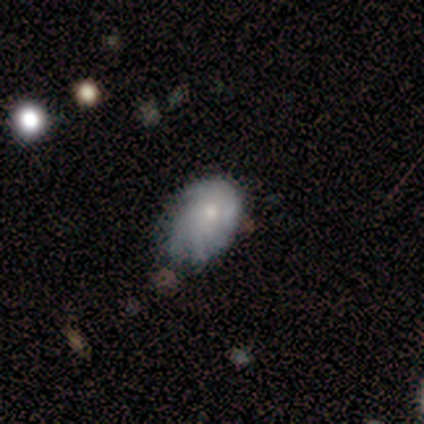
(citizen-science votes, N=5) Smooth or featured?
  - featured or disk: 60% *
  - smooth: 40%
  - star or artifact: 0%
Edge-on disk?
  - no: 100% *
  - yes: 0%
Bar?
  - no: 100% *
  - strong: 0%
  - weak: 0%
Spiral arms?
  - yes: 67% *
  - no: 33%
Spiral winding?
  - tight: 50% * (tied)
  - loose: 50% * (tied)
  - medium: 0%
Spiral arm count?
  - 4: 50% * (tied)
  - can't tell: 50% * (tied)
  - 1: 0%
  - 2: 0%
  - 3: 0%
  - more than 4: 0%
Bulge size?
  - small: 67% *
  - moderate: 33%
  - dominant: 0%
  - large: 0%
  - none: 0%
Merging?
  - minor disturbance: 60% *
  - none: 40%
  - major disturbance: 0%
  - merger: 0%